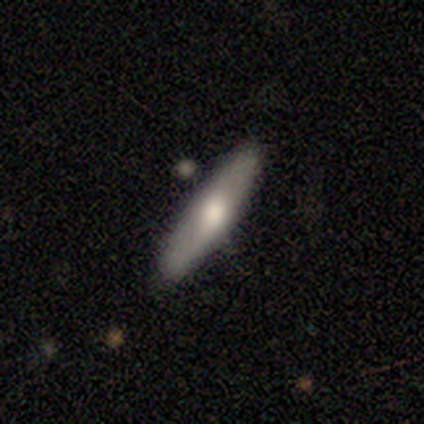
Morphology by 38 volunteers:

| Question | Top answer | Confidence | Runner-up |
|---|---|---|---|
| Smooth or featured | smooth | 53% | featured or disk (42%) |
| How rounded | cigar-shaped | 75% | in between (25%) |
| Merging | none | 89% | minor disturbance (6%) |